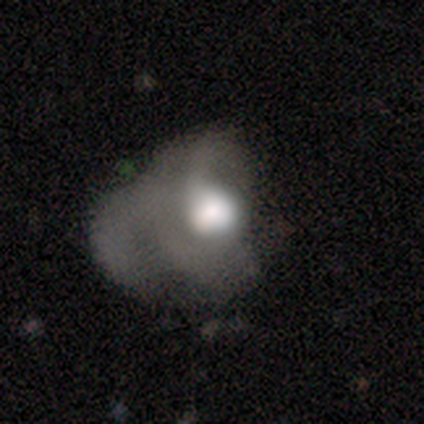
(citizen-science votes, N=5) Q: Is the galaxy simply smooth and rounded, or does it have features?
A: featured or disk — 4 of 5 (80%).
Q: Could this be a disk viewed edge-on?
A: no — 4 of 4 (100%).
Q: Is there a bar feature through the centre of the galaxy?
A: no — 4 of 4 (100%).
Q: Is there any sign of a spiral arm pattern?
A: yes — 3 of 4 (75%).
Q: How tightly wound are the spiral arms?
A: loose — 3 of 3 (100%).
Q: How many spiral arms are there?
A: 1 — 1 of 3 (33%, tied with 2 and can't tell).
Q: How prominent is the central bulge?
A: large — 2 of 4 (50%).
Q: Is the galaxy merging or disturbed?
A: major disturbance — 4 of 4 (100%).